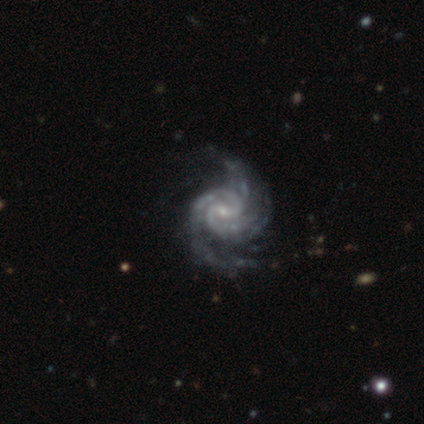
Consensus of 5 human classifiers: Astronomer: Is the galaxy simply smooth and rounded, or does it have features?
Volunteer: featured or disk — 100%.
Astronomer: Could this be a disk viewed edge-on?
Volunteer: no — 100%.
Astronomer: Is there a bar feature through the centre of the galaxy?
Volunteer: weak — 60%.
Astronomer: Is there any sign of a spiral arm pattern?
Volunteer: yes — 100%.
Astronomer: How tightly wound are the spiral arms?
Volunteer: medium — 60%.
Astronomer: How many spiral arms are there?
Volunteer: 2 — 60% (runner-up: 4, 40%).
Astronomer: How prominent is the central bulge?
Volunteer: small — 80%.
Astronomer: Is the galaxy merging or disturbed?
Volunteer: minor disturbance — 60% (runner-up: none, 40%).